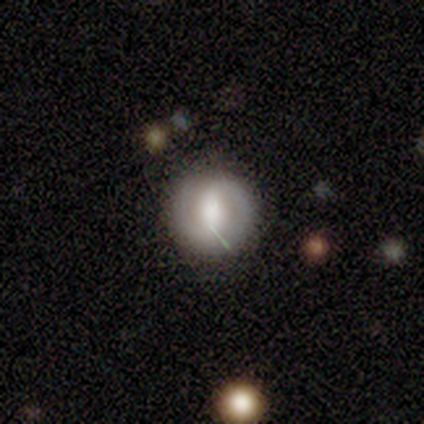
smooth_or_featured: featured or disk (p=0.55) [alt: smooth p=0.39]
disk_edge_on: no (p=1.00)
bar: strong (p=0.38) [alt: no p=0.33]
has_spiral_arms: yes (p=0.62) [alt: no p=0.38]
spiral_winding: medium (p=0.62) [alt: tight p=0.31]
spiral_arm_count: 2 (p=0.92) [alt: 1 p=0.08]
bulge_size: moderate (p=0.43) [alt: large p=0.29]
merging: none (p=0.61) [alt: minor disturbance p=0.31]